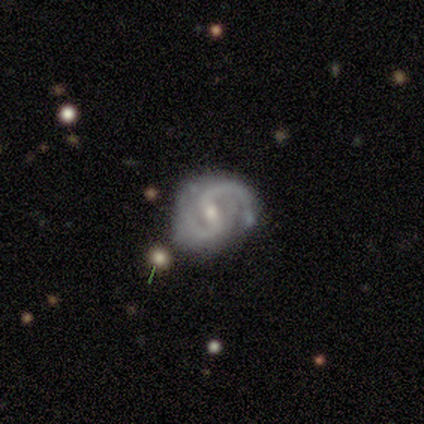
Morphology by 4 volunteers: Q: Smooth or featured?
A: featured or disk (100%)
Q: Edge-on disk?
A: no (100%)
Q: Bar?
A: strong (50%); tied with: weak (50%)
Q: Spiral arms?
A: yes (100%)
Q: Spiral winding?
A: medium (50%); runner-up: tight (25%)
Q: Spiral arm count?
A: 2 (100%)
Q: Bulge size?
A: small (75%); runner-up: moderate (25%)
Q: Merging?
A: none (50%); runner-up: minor disturbance (25%)